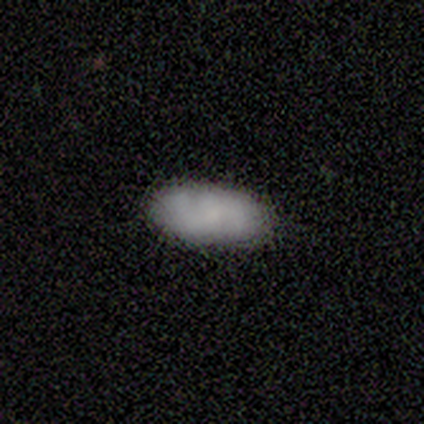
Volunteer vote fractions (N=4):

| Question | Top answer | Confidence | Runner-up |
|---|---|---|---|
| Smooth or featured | smooth | 100% | — |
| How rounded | in between | 75% | cigar-shaped (25%) |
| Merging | none | 100% | — |